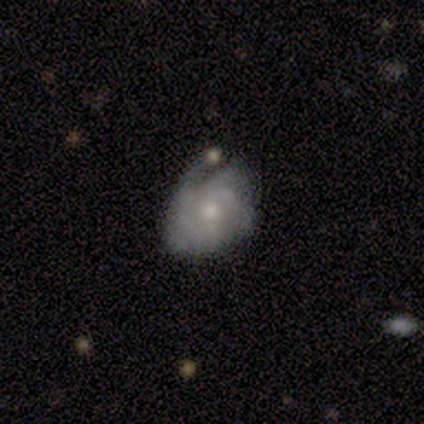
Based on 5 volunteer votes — A featured or disk galaxy (80%) with no bar (100%), tight (33%, tied with medium and loose) spiral arms (100%) and a moderate central bulge (67%). Merging: none (40%, tied with minor disturbance).